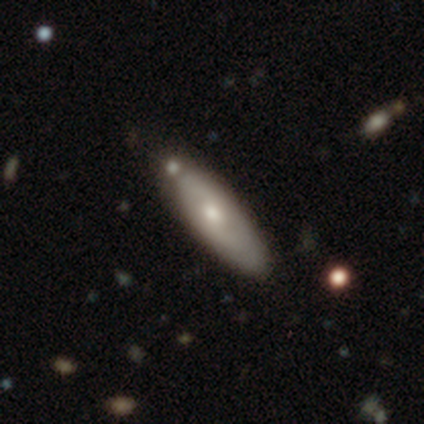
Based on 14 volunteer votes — A smooth galaxy with no disk features (50%) that is cigar-shaped (86%). Merging: none (54%).